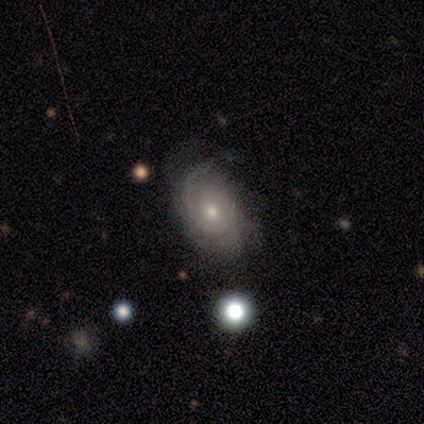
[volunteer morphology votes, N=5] Overall: featured or disk (100%). Edge-on disk: no (100%). Bar: no (80%). Spiral arms: yes (100%). Spiral arm count: 1 (40%, tied with 2). Spiral winding: tight (60%; medium 40%). Bulge size: moderate (60%; small 40%). Merging: none (40%, tied with minor disturbance).